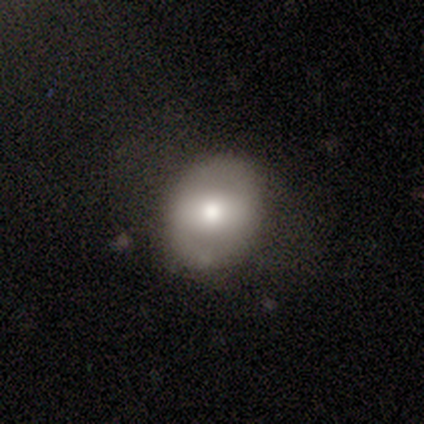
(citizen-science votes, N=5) A smooth galaxy with no disk features (80%) that is round (50%, tied with in between).

Vote fractions:
- Smooth or featured? smooth: 80% / featured or disk: 20% / star or artifact: 0%
- How rounded? round: 50% (tied) / in between: 50% (tied) / cigar-shaped: 0%
- Merging? none: 80% / minor disturbance: 20% / major disturbance: 0% / merger: 0%